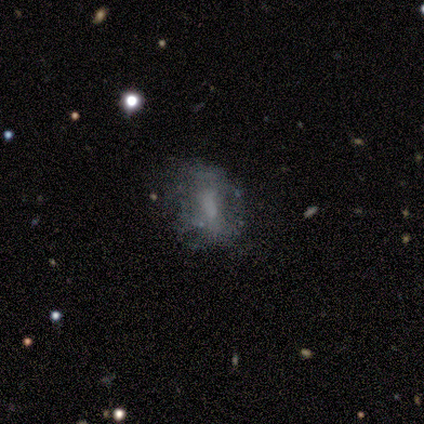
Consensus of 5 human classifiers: Smooth or featured? 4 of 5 (80%) said featured or disk. Edge-on disk? 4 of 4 (100%) said no. Bar? 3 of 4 (75%) said no. Spiral arms? 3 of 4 (75%) said no. Bulge size? 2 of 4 (50%, tied with none) said small. Merging? 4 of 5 (80%) said none.